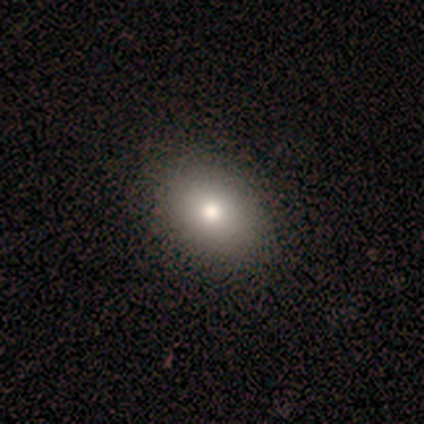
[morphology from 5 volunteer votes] smooth_or_featured: smooth (p=0.80) [alt: star or artifact p=0.20]
how_rounded: in between (p=1.00)
merging: none (p=1.00)